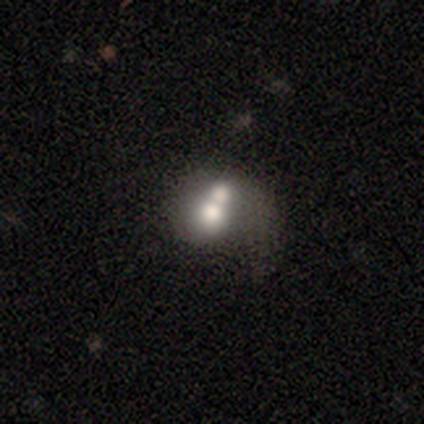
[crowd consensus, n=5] smooth_or_featured: smooth (p=0.40) [tied with: featured or disk p=0.40]
how_rounded: round (p=0.50) [tied with: in between p=0.50]
merging: merger (p=0.75) [alt: major disturbance p=0.25]